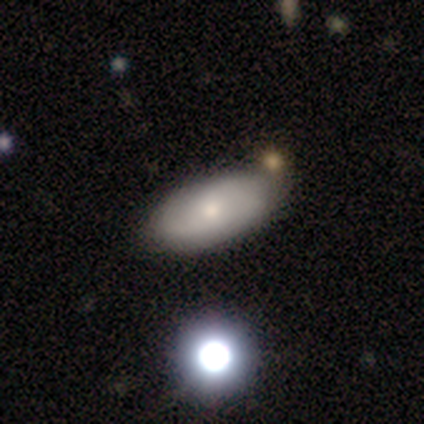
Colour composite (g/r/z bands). It shows a smooth galaxy with no disk features (59%) that is in between round and cigar-shaped (96%). Merging: none (47%).